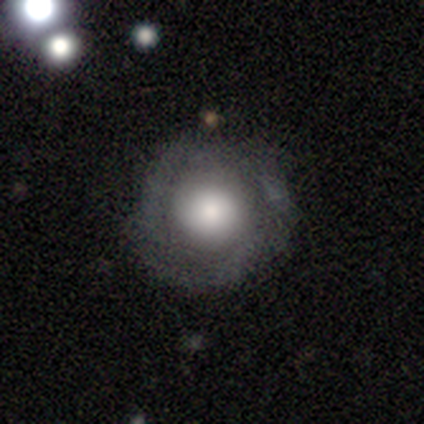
Smooth or featured?
  - smooth: 57% *
  - featured or disk: 43%
  - star or artifact: 0%
How rounded?
  - round: 100% *
  - in between: 0%
  - cigar-shaped: 0%
Merging?
  - none: 86% *
  - minor disturbance: 14%
  - major disturbance: 0%
  - merger: 0%